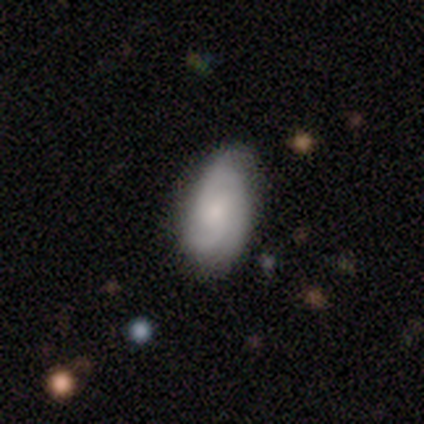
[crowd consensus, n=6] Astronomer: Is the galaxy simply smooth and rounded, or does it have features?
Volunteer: smooth — 50%, tied with featured or disk at 50%.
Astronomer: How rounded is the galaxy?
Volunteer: in between — 100%.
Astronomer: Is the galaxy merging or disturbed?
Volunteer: none — 83%.